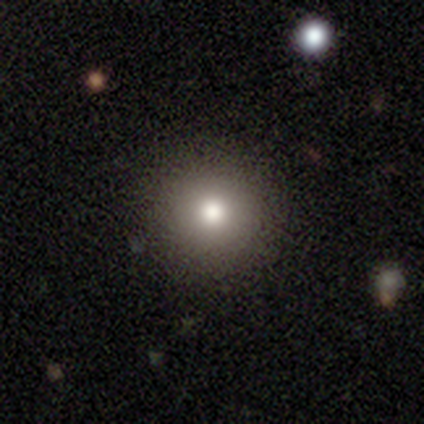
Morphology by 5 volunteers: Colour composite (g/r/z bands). It shows a smooth galaxy with no disk features (80%) that is round (100%). Merging: none (100%).